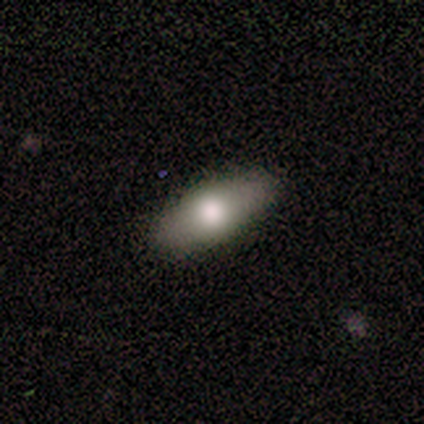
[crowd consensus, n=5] Q: Smooth or featured?
A: smooth (60%); runner-up: featured or disk (20%)
Q: How rounded?
A: cigar-shaped (67%); runner-up: in between (33%)
Q: Merging?
A: none (75%); runner-up: minor disturbance (25%)